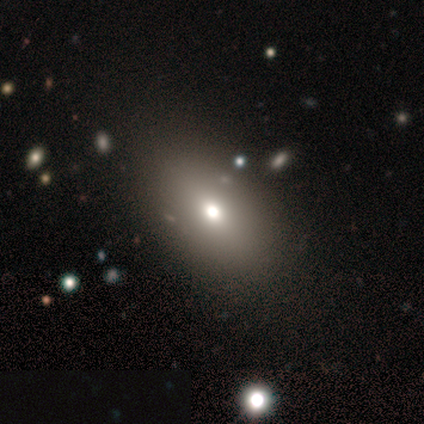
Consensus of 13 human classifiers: Smooth or featured? smooth (85%)
How rounded? in between (82%)
Merging? none (100%)